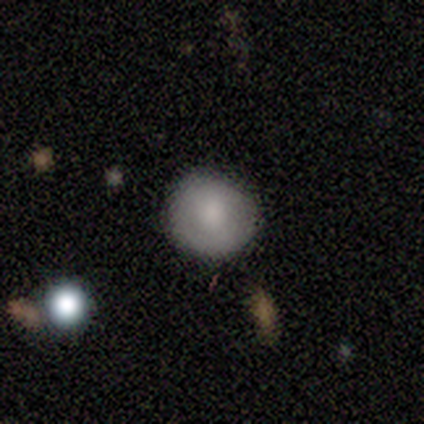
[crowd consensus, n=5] A smooth galaxy with no disk features (100%) that is round (100%).

Vote fractions:
- Smooth or featured? smooth: 100% / featured or disk: 0% / star or artifact: 0%
- How rounded? round: 100% / in between: 0% / cigar-shaped: 0%
- Merging? none: 60% / minor disturbance: 40% / major disturbance: 0% / merger: 0%